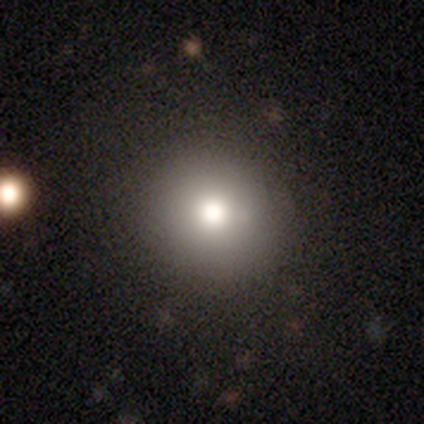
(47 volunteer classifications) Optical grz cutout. It shows a smooth galaxy with no disk features (70%) that is round (94%). Merging: none (89%).